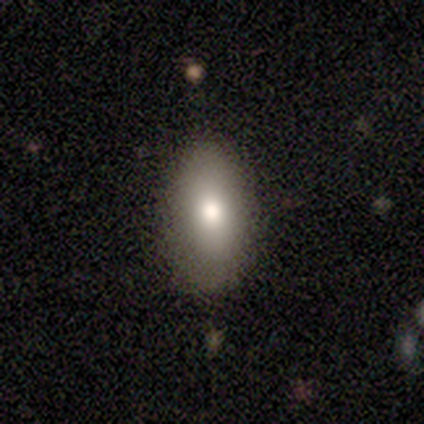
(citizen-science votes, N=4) smooth_or_featured: smooth (p=0.75) [alt: featured or disk p=0.25]
how_rounded: in between (p=0.67) [alt: round p=0.33]
merging: none (p=0.75) [alt: major disturbance p=0.25]